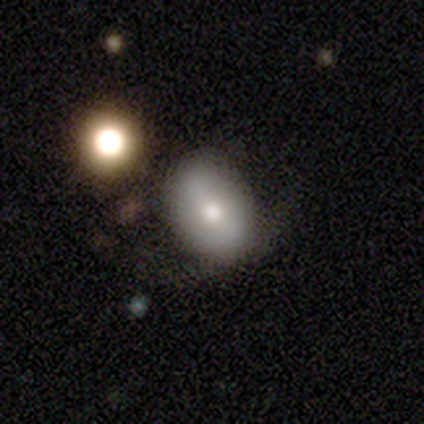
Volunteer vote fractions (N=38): Overall: smooth (55%; star or artifact 24%). How rounded: in between (76%). Merging: none (72%).